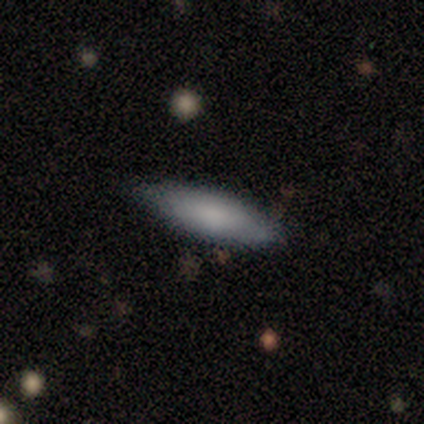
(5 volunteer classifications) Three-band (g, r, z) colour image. It shows a smooth galaxy with no disk features (80%) that is cigar-shaped (75%). Merging: none (100%).